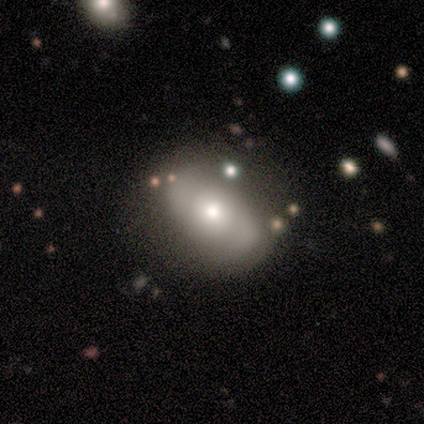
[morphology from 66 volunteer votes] Volunteers were most divided on "smooth or featured": featured or disk: 50%, smooth: 44%, star or artifact: 6%. Remaining: spiral arm count — 2 (94%); edge-on disk — no (91%); bar — no (90%); bulge size — moderate (63%); spiral arms — yes (57%); merging — none (53%); spiral winding — tight (47%).